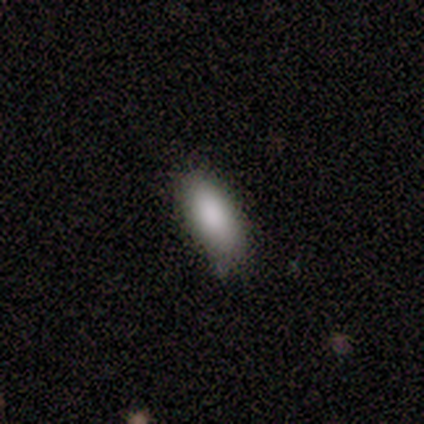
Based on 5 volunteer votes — smooth 100%, featured or disk 0%, star or artifact 0%. Down the decision tree: how rounded — in between (100%); merging — none (80%).